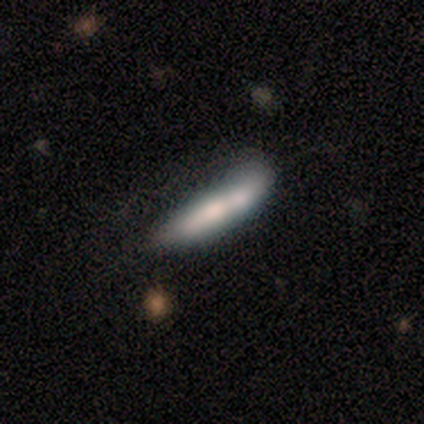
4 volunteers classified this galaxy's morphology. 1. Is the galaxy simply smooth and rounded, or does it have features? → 50% smooth (tied), 50% featured or disk (tied), 0% star or artifact.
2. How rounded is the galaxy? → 100% cigar-shaped, 0% round, 0% in between.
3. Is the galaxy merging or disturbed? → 50% merger, 25% none, 25% minor disturbance, 0% major disturbance.